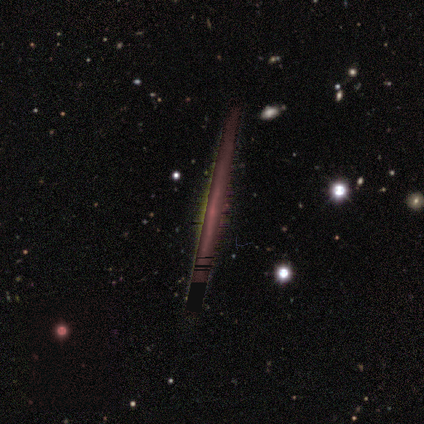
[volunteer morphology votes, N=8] Volunteers were most divided on "smooth or featured": star or artifact: 50%, featured or disk: 38%, smooth: 12%.